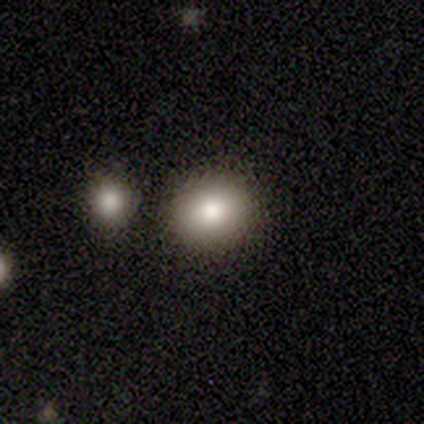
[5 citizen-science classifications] Smooth or featured?
  - smooth: 100% *
  - featured or disk: 0%
  - star or artifact: 0%
How rounded?
  - in between: 60% *
  - round: 40%
  - cigar-shaped: 0%
Merging?
  - none: 80% *
  - merger: 20%
  - minor disturbance: 0%
  - major disturbance: 0%